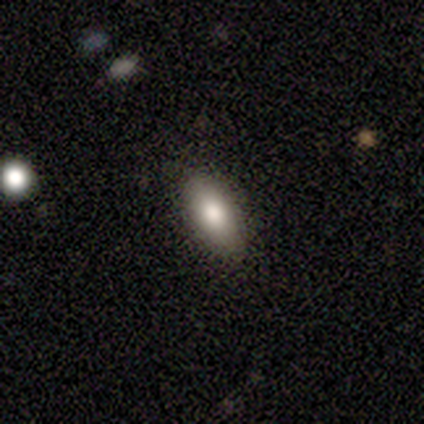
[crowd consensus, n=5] Smooth or featured?
  - smooth: 80% *
  - featured or disk: 20%
  - star or artifact: 0%
How rounded?
  - in between: 100% *
  - round: 0%
  - cigar-shaped: 0%
Merging?
  - none: 80% *
  - minor disturbance: 20%
  - major disturbance: 0%
  - merger: 0%